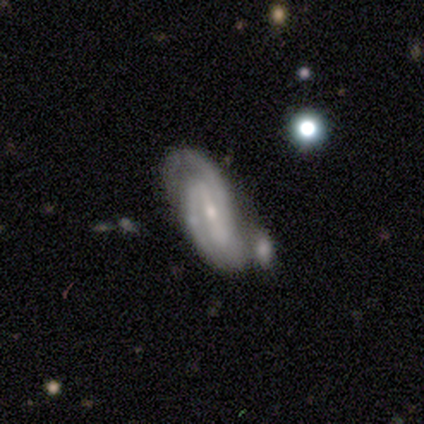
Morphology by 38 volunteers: This is likely a featured or disk galaxy (71%). It is clearly not viewed edge-on (89%). Bar: possibly weak (50%). Spiral arm pattern: clearly yes (96%). Spiral arm count: likely 2 (78%). Spiral winding: possibly medium (52%). Central bulge: clearly small (83%). Merging: marginally none (32%).